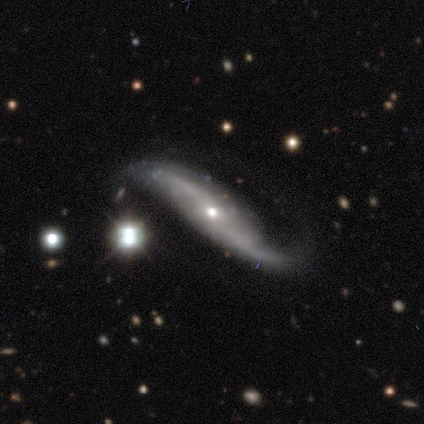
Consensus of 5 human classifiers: This is clearly a featured or disk galaxy (100%). It is clearly not viewed edge-on (100%). Bar: likely no (60%). Spiral arm pattern: clearly yes (100%). Spiral arm count: clearly 2 (80%). Spiral winding: clearly loose (100%). Central bulge: likely moderate (60%). Merging: likely none (60%).